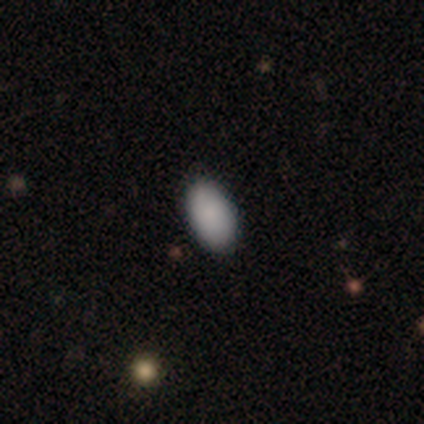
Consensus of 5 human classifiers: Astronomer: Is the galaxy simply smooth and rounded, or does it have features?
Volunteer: smooth — 100%.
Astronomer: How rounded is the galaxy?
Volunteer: in between — 100%.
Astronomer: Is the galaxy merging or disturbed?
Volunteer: none — 100%.